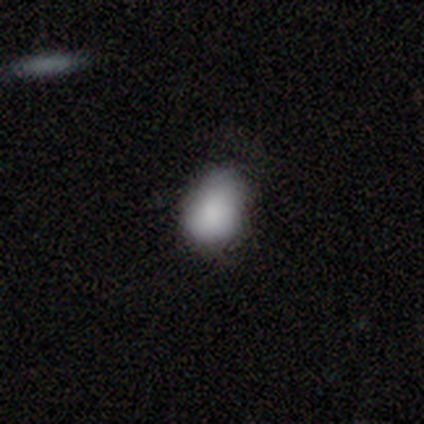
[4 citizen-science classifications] Smooth or featured: smooth — 100%
How rounded: round — 50% (tied with in between — 50%)
Merging: minor disturbance — 75% (major disturbance — 25%)